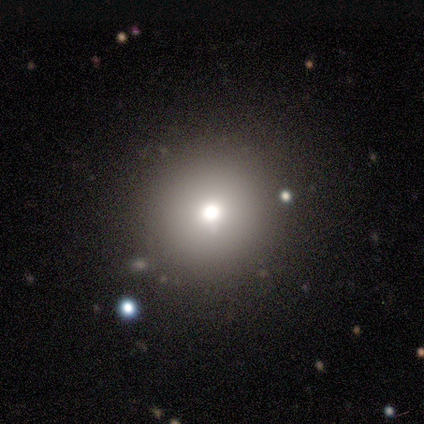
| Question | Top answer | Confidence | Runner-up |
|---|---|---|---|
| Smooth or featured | smooth | 50% | featured or disk (25%) |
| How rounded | round | 100% | — |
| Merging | none | 67% | major disturbance (33%) |